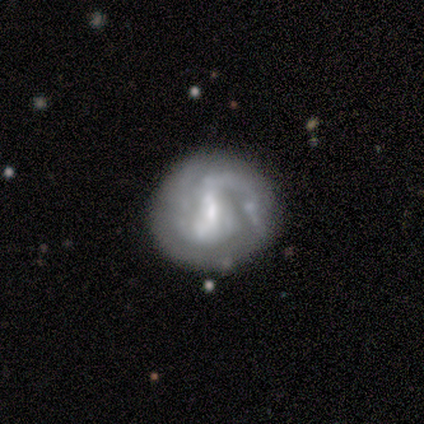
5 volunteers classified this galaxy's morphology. Smooth or featured? featured or disk (100%)
Edge-on disk? no (100%)
Bar? strong (60%)
Spiral arms? yes (100%)
Spiral winding? tight (40%, tied with loose)
Spiral arm count? 2 (80%)
Bulge size? small (80%)
Merging? none (80%)